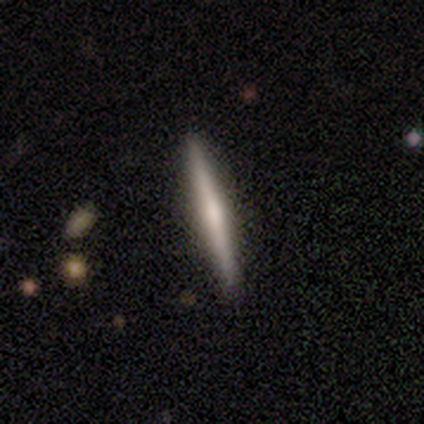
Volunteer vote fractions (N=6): A featured or disk galaxy (50%) viewed edge-on (100%) with no central bulge (67%).

Vote fractions:
- Smooth or featured? featured or disk: 50% / smooth: 33% / star or artifact: 17%
- Edge-on disk? yes: 100% / no: 0%
- Edge-on bulge? none: 67% / rounded: 33% / boxy: 0%
- Merging? none: 100% / minor disturbance: 0% / major disturbance: 0% / merger: 0%